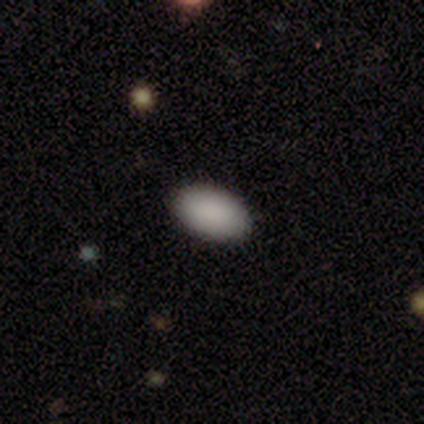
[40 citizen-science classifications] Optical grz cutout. It shows a smooth galaxy with no disk features (90%) that is in between round and cigar-shaped (92%). Merging: none (94%).